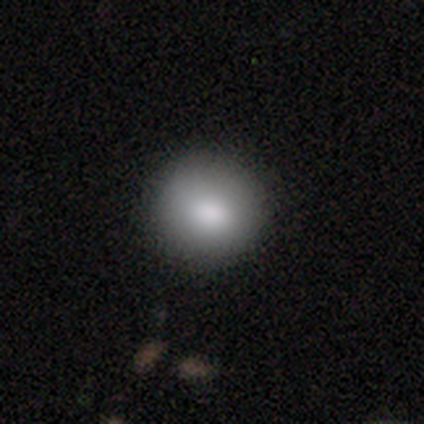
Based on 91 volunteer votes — smooth-or-featured: smooth: 86% | star or artifact: 8% | featured or disk: 7%
  how-rounded: round: 95% | in between: 5% | cigar-shaped: 0%
  merging: none: 87% | minor disturbance: 8% | major disturbance: 4% | merger: 1%